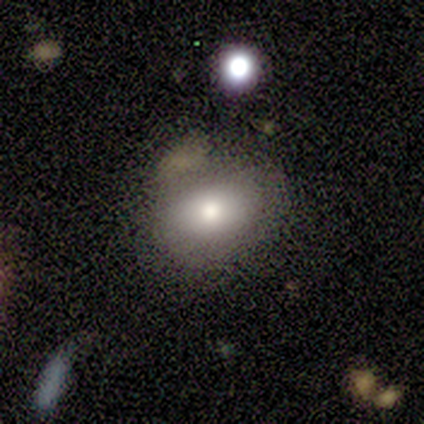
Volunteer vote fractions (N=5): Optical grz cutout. It shows a smooth galaxy with no disk features (100%) that is in between round and cigar-shaped (80%). Merging: none (60%).